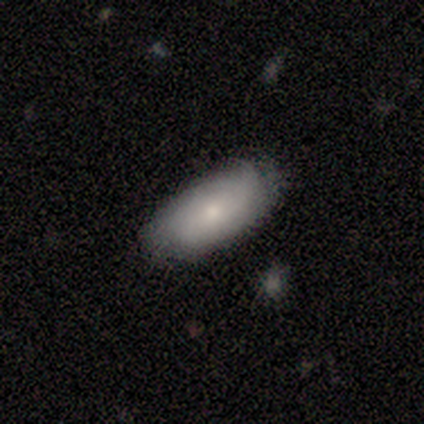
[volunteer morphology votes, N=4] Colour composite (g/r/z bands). It shows a smooth galaxy with no disk features (75%) that is in between round and cigar-shaped (100%). Merging: none (75%).